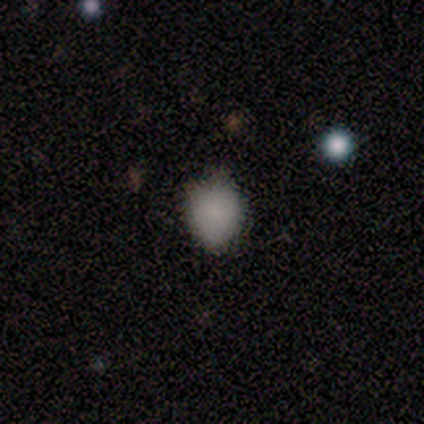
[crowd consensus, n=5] smooth 100%, featured or disk 0%, star or artifact 0%. Down the decision tree: how rounded — round (80%); merging — none (80%).